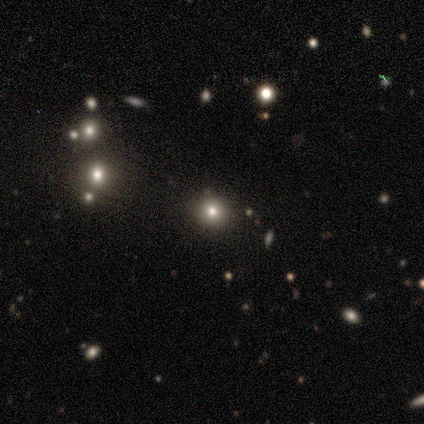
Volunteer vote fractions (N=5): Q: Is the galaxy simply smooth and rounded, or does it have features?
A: smooth — 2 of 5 (40%, tied with star or artifact).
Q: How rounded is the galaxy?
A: round — 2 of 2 (100%).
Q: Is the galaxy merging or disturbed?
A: none — 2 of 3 (67%).